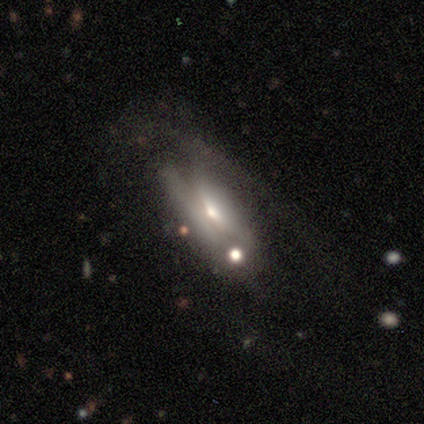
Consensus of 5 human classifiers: Smooth or featured? 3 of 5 (60%) said smooth. How rounded? 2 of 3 (67%) said in between. Merging? 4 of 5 (80%) said major disturbance.